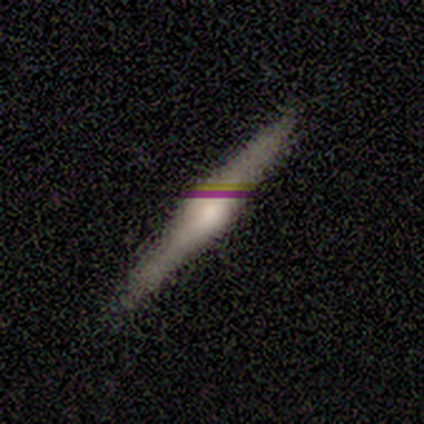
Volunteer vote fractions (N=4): Smooth or featured? featured or disk (50%)
Edge-on disk? yes (100%)
Edge-on bulge? rounded (100%)
Merging? none (100%)